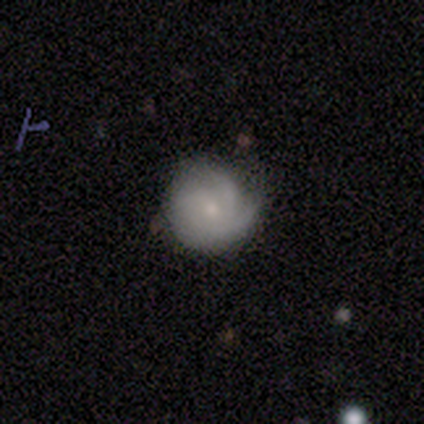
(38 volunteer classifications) A featured or disk galaxy (82%) with no bar (77%), 3 (33%) tight (47%) spiral arms (97%) and a small central bulge (65%).

Vote fractions:
- Smooth or featured? featured or disk: 82% / smooth: 13% / star or artifact: 5%
- Edge-on disk? no: 100% / yes: 0%
- Bar? no: 77% / weak: 23% / strong: 0%
- Spiral arms? yes: 97% / no: 3%
- Spiral winding? tight: 47% / medium: 40% / loose: 13%
- Spiral arm count? 3: 33% / can't tell: 27% / 2: 23% / 1: 13% / 4: 3% / more than 4: 0%
- Bulge size? small: 65% / moderate: 23% / large: 6% / dominant: 3% / none: 3%
- Merging? none: 64% / minor disturbance: 19% / major disturbance: 6% / merger: 0%